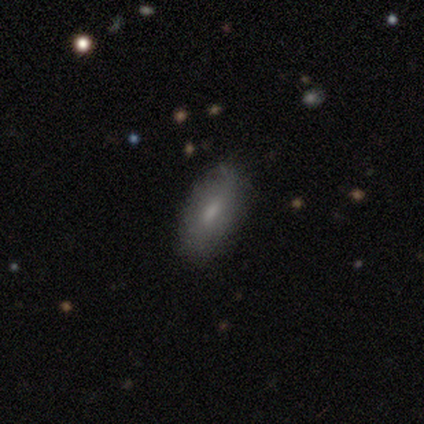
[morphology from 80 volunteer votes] Overall: smooth (75%). How rounded: in between (85%). Merging: none (45%; minor disturbance 12%).